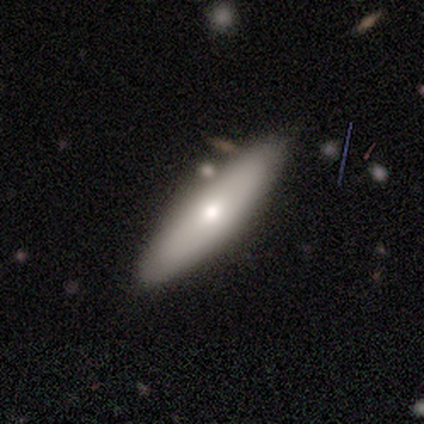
A smooth galaxy with no disk features (60%) that is in between round and cigar-shaped (67%).

Vote fractions:
- Smooth or featured? smooth: 60% / featured or disk: 40% / star or artifact: 0%
- How rounded? in between: 67% / cigar-shaped: 33% / round: 0%
- Merging? minor disturbance: 60% / none: 20% / merger: 20% / major disturbance: 0%